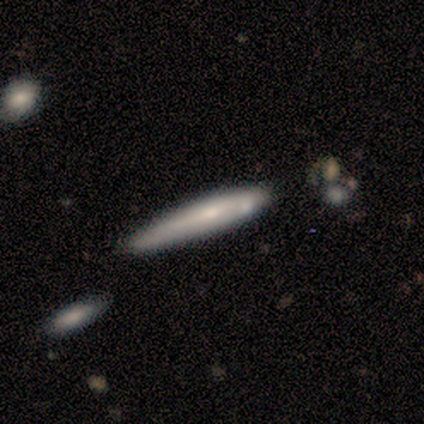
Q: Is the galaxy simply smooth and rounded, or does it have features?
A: smooth — 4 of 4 (100%).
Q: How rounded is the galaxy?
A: cigar-shaped — 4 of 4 (100%).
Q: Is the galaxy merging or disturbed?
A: none — 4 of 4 (100%).